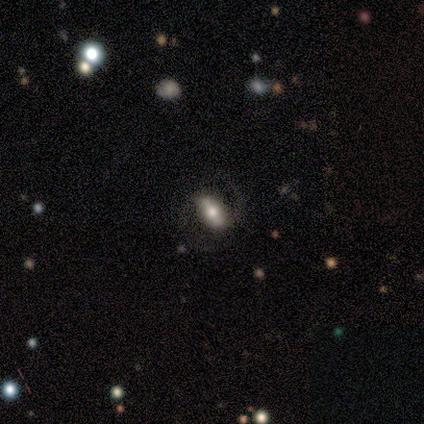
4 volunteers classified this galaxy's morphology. Smooth or featured?
  - featured or disk: 75% *
  - smooth: 25%
  - star or artifact: 0%
Edge-on disk?
  - no: 67% *
  - yes: 33%
Bar?
  - weak: 50% * (tied)
  - no: 50% * (tied)
  - strong: 0%
Spiral arms?
  - yes: 100% *
  - no: 0%
Spiral winding?
  - loose: 100% *
  - tight: 0%
  - medium: 0%
Spiral arm count?
  - 2: 50% * (tied)
  - can't tell: 50% * (tied)
  - 1: 0%
  - 3: 0%
  - 4: 0%
  - more than 4: 0%
Bulge size?
  - moderate: 50% * (tied)
  - small: 50% * (tied)
  - dominant: 0%
  - large: 0%
  - none: 0%
Merging?
  - none: 50% * (tied)
  - minor disturbance: 50% * (tied)
  - major disturbance: 0%
  - merger: 0%